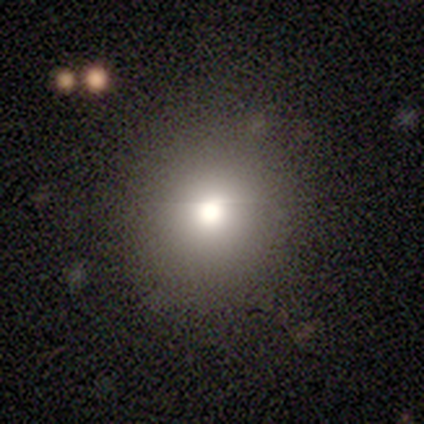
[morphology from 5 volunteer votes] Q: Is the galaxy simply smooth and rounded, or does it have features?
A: smooth — 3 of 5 (60%).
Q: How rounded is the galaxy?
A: round — 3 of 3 (100%).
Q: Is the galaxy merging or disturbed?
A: none — 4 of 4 (100%).